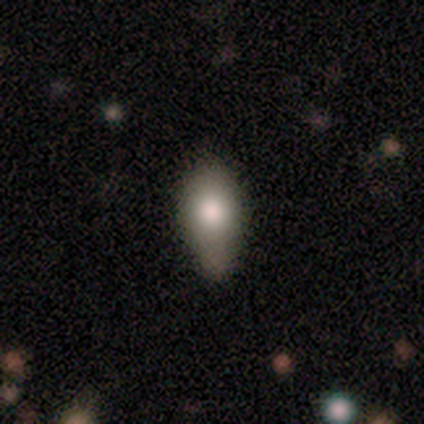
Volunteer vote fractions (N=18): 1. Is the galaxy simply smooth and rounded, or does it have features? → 67% smooth, 22% featured or disk, 11% star or artifact.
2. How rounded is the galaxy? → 92% in between, 8% cigar-shaped, 0% round.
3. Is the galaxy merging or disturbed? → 50% minor disturbance, 44% none, 6% major disturbance, 0% merger.